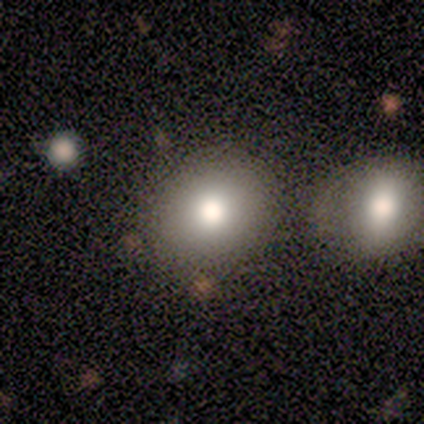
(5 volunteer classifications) Overall: smooth (80%). How rounded: round (100%). Merging: none (80%).